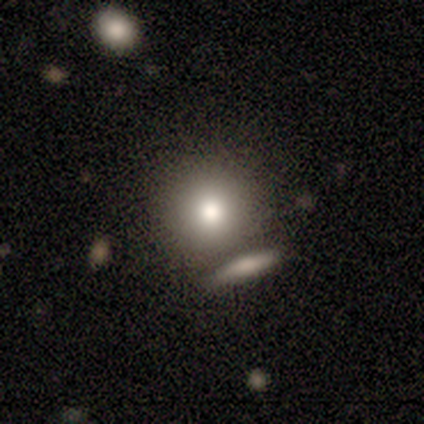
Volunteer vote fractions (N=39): Overall: smooth (77%). How rounded: round (87%). Merging: none (47%; merger 31%).